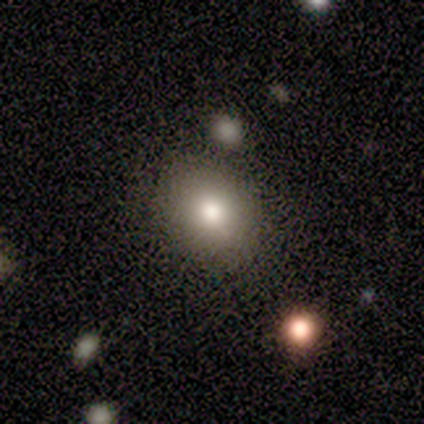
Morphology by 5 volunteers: type=smooth (80%); roundness=round (75%); merging=none (100%).